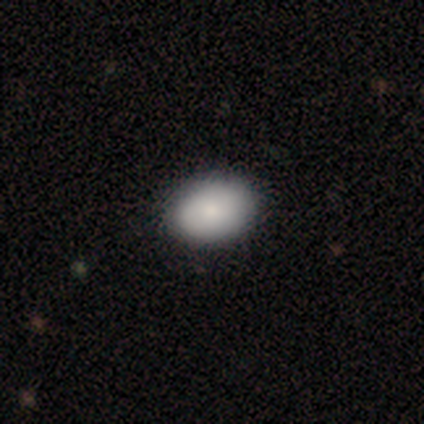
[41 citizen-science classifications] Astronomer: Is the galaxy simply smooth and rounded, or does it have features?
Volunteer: smooth — 88%.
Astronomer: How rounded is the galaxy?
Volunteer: in between — 81%.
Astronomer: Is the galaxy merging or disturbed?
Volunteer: none — 71%.